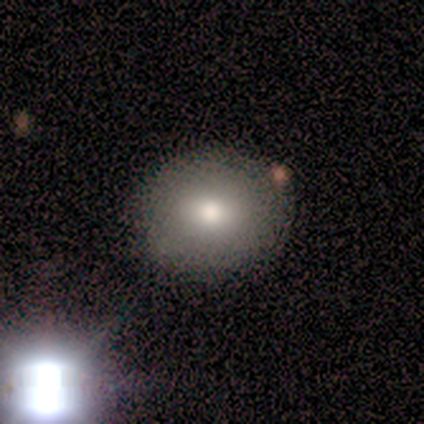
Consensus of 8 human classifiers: Smooth or featured?
  - smooth: 75% *
  - featured or disk: 25%
  - star or artifact: 0%
How rounded?
  - round: 83% *
  - in between: 17%
  - cigar-shaped: 0%
Merging?
  - none: 62% *
  - merger: 38%
  - minor disturbance: 0%
  - major disturbance: 0%